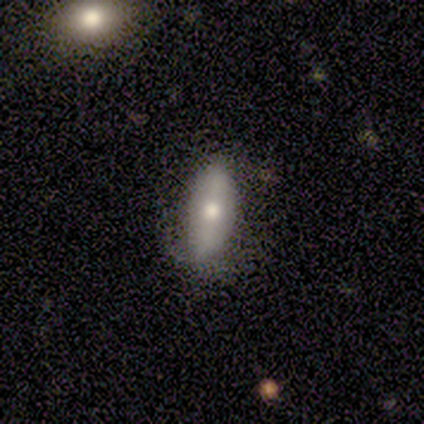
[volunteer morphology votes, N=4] smooth_or_featured: smooth (p=0.50) [tied with: featured or disk p=0.50]
how_rounded: in between (p=1.00)
merging: none (p=0.75) [alt: minor disturbance p=0.25]